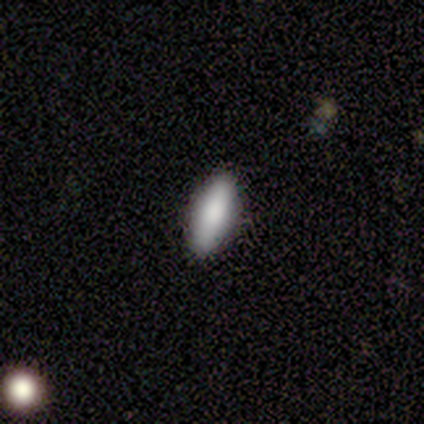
Smooth or featured?
  - smooth: 80% *
  - star or artifact: 20%
  - featured or disk: 0%
How rounded?
  - in between: 100% *
  - round: 0%
  - cigar-shaped: 0%
Merging?
  - none: 100% *
  - minor disturbance: 0%
  - major disturbance: 0%
  - merger: 0%